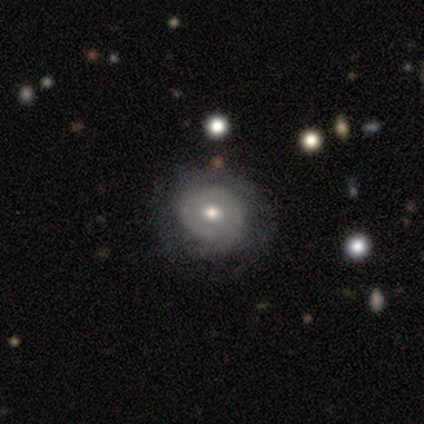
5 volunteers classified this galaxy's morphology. This is likely a featured or disk galaxy (60%). It is clearly not viewed edge-on (100%). Bar: clearly no (100%). Spiral arm pattern: likely no (67%). Central bulge: likely moderate (67%). Merging: clearly none (80%).